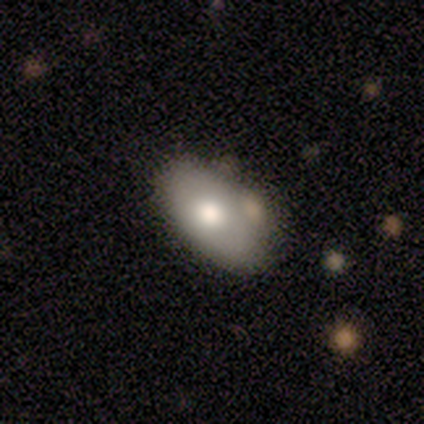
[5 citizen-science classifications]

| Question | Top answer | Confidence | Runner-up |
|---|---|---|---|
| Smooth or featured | featured or disk | 60% | smooth (40%) |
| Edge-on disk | no | 67% | yes (33%) |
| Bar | no | 100% | — |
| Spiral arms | no | 100% | — |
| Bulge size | large | 50% | tied: moderate (50%) |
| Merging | minor disturbance | 40% | tied: merger (40%) |